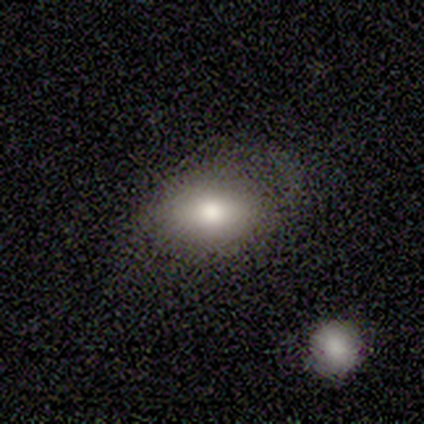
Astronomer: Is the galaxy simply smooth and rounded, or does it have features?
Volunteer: smooth — 77%.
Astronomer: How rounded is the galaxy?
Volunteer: in between — 100%.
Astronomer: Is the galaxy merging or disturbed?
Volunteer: none — 50% (runner-up: minor disturbance, 42%).